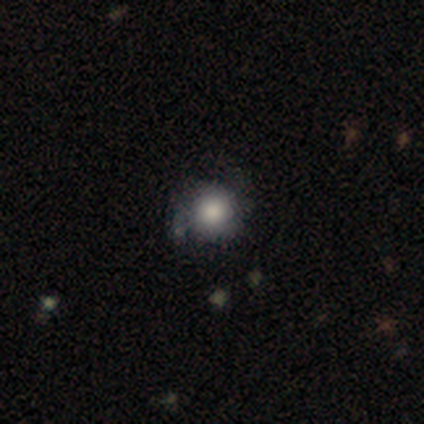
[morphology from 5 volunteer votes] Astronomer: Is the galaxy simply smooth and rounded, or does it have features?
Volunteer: smooth — 60% (runner-up: featured or disk, 40%).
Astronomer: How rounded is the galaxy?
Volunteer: round — 67%.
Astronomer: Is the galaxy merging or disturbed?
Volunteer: none — 60%.